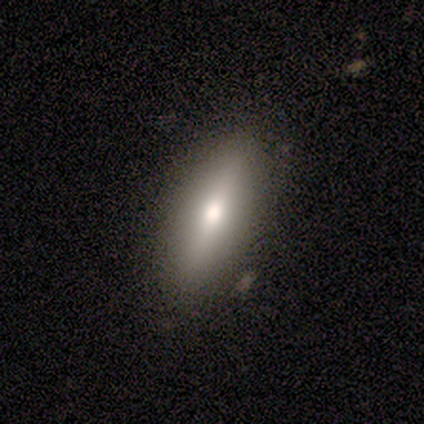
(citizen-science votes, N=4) Q: Smooth or featured?
A: smooth (50%); tied with: featured or disk (50%)
Q: How rounded?
A: in between (50%); tied with: cigar-shaped (50%)
Q: Merging?
A: none (100%)